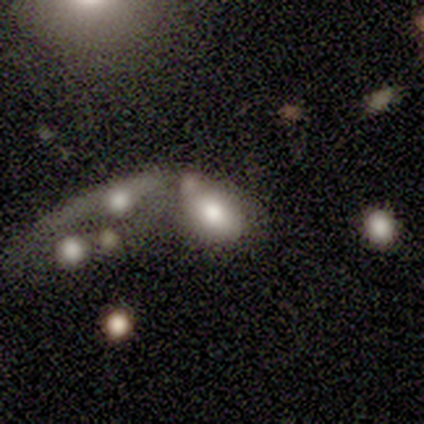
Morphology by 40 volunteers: A smooth galaxy with no disk features (80%) that is in between round and cigar-shaped (69%). Merging: merger (49%).